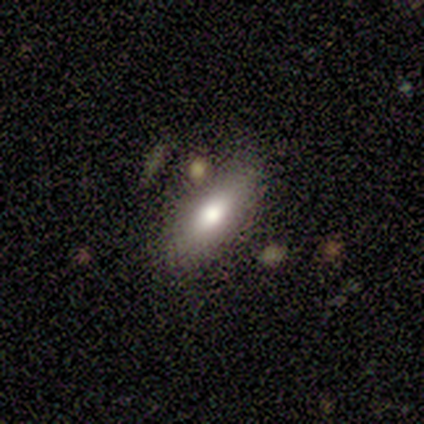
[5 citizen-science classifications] A smooth galaxy with no disk features (80%) that is in between round and cigar-shaped (75%).

Vote fractions:
- Smooth or featured? smooth: 80% / featured or disk: 20% / star or artifact: 0%
- How rounded? in between: 75% / cigar-shaped: 25% / round: 0%
- Merging? none: 80% / merger: 20% / minor disturbance: 0% / major disturbance: 0%